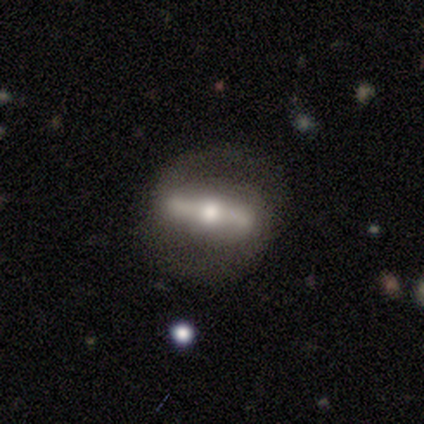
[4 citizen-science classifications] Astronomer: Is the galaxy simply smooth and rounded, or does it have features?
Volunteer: featured or disk — 100%.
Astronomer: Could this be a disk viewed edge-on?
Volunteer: no — 75%.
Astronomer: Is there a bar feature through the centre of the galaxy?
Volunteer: strong — 100%.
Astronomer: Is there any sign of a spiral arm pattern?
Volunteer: yes — 100%.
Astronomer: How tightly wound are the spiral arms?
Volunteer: loose — 67%.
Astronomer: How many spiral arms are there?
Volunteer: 2 — 67%.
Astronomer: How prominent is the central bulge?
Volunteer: moderate — 67%.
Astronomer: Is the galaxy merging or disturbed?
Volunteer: none — 75%.